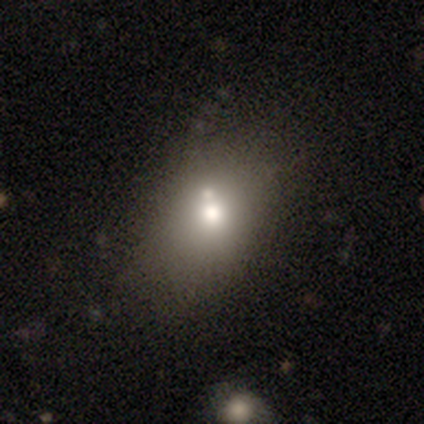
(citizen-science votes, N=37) Smooth or featured? 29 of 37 (78%) said smooth. How rounded? 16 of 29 (55%) said in between. Merging? 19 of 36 (53%) said none.